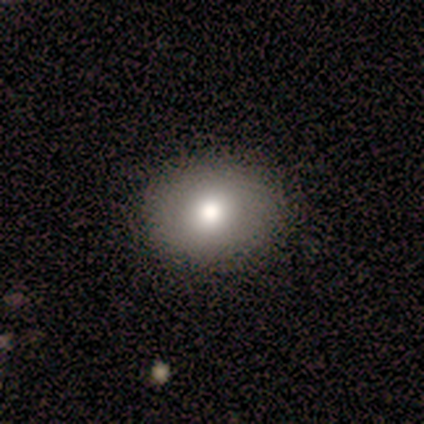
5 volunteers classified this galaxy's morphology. smooth 100%, featured or disk 0%, star or artifact 0%. Down the decision tree: how rounded — round (80%); merging — none (80%).